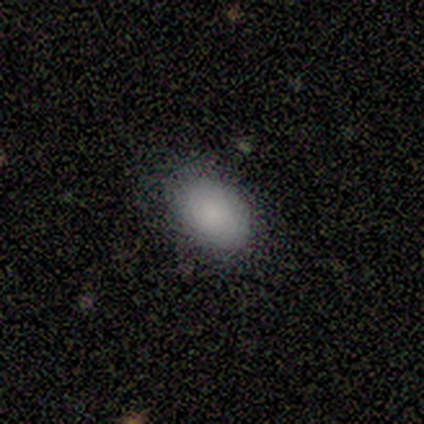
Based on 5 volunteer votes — A smooth galaxy with no disk features (80%) that is in between round and cigar-shaped (100%). Merging: none (100%).